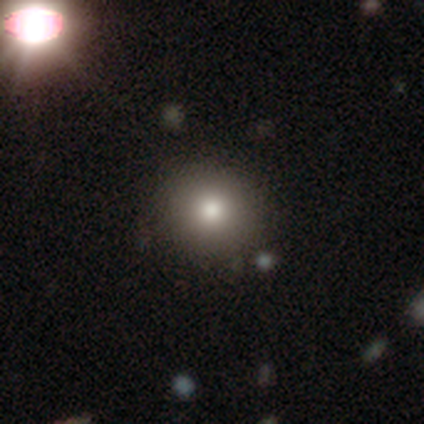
This is clearly a smooth galaxy (88%). How rounded: clearly round (89%). Merging: likely none (68%).